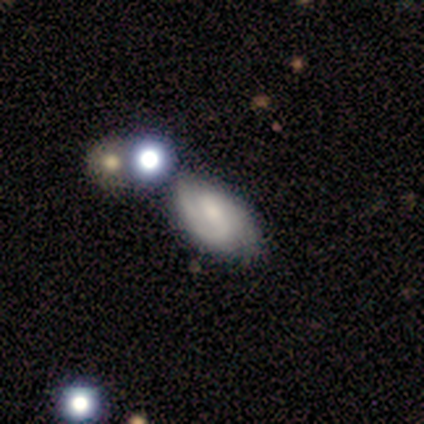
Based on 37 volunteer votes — This appears to be a featured or disk galaxy (68%) with a weak bar (44%), 2 (77%) medium (59%) spiral arms (88%) and a moderate central bulge (48%). Merging: none (53%).